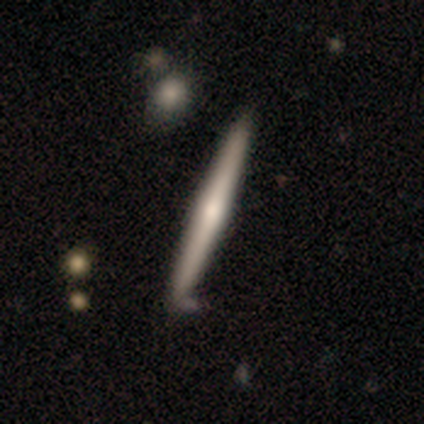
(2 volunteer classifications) This is possibly a smooth galaxy (50%, tied with featured or disk). How rounded: clearly cigar-shaped (100%). Merging: clearly minor disturbance (100%).